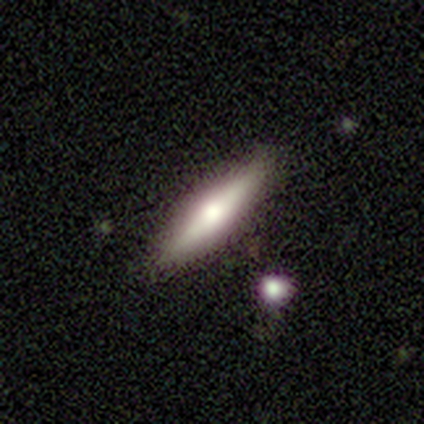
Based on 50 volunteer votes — Volunteers were most divided on "smooth or featured": featured or disk: 60%, smooth: 36%, star or artifact: 4%. More confident: edge-on disk — yes (97%); edge-on bulge — rounded (90%); merging — none (88%).